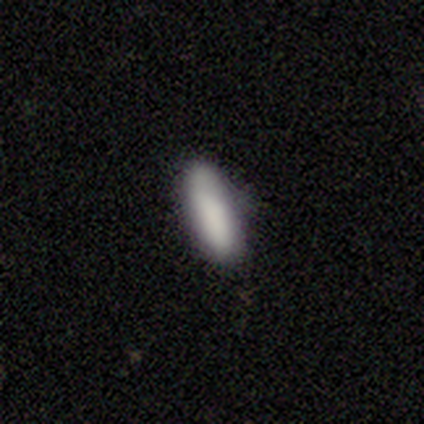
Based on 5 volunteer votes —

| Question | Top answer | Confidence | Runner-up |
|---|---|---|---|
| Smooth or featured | smooth | 60% | featured or disk (20%) |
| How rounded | in between | 67% | cigar-shaped (33%) |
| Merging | none | 100% | — |